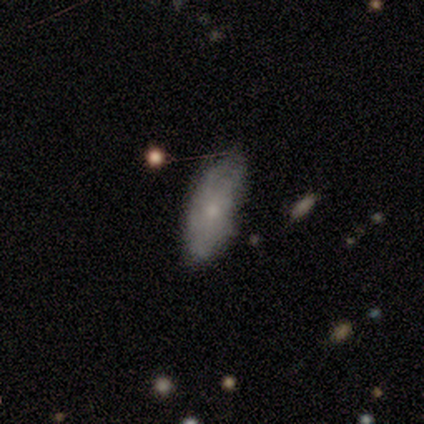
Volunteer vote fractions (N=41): smooth 51%, featured or disk 49%, star or artifact 0%. Down the decision tree: how rounded — in between (90%); merging — none (44%).